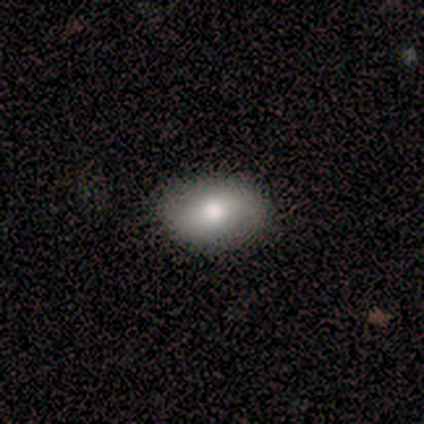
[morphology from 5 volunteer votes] Volunteers were most divided on "merging": none: 80%, minor disturbance: 20%, major disturbance: 0%, merger: 0%. More confident: smooth or featured — smooth (100%); how rounded — in between (100%).